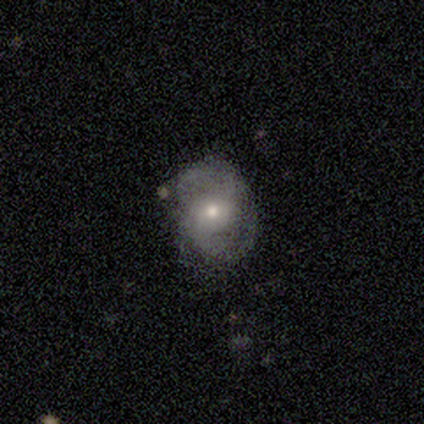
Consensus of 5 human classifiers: This appears to be a featured or disk galaxy (60%) with no bar (67%), 2 (100%) tight (33%, tied with medium and loose) spiral arms (100%) and a small central bulge (67%). Merging: none (60%).